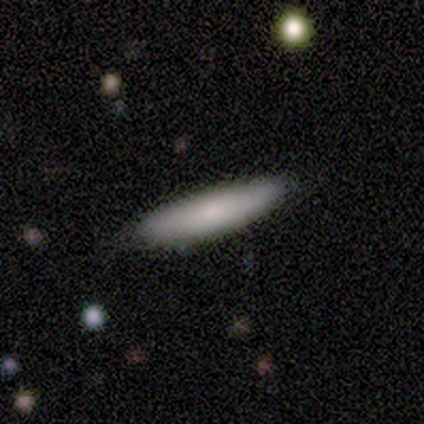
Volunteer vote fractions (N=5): This is clearly a smooth galaxy (100%). How rounded: clearly cigar-shaped (100%). Merging: clearly none (100%).